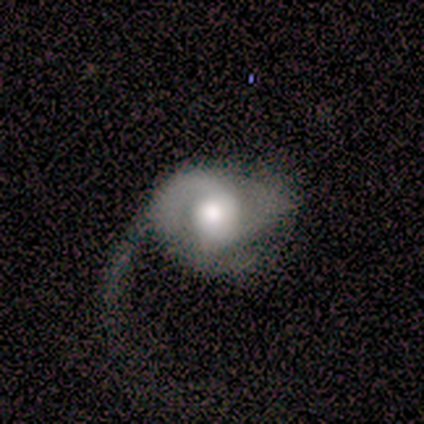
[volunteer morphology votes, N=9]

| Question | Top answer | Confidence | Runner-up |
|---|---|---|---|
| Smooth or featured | featured or disk | 89% | smooth (11%) |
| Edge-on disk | no | 100% | — |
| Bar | no | 50% | weak (38%) |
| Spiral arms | yes | 75% | no (25%) |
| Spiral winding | medium | 67% | tight (33%) |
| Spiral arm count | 2 | 67% | 1 (17%) |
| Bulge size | moderate | 50% | large (38%) |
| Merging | major disturbance | 67% | minor disturbance (22%) |